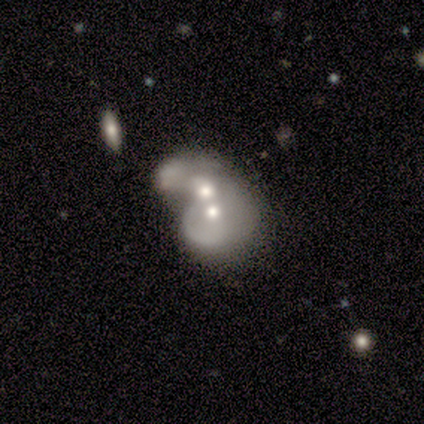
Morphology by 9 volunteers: A featured or disk galaxy (89%) with no bar (100%), no spiral arms (75%) and a moderate central bulge (62%).

Vote fractions:
- Smooth or featured? featured or disk: 89% / smooth: 11% / star or artifact: 0%
- Edge-on disk? no: 100% / yes: 0%
- Bar? no: 100% / strong: 0% / weak: 0%
- Spiral arms? no: 75% / yes: 25%
- Bulge size? moderate: 62% / small: 38% / dominant: 0% / large: 0% / none: 0%
- Merging? merger: 100% / none: 0% / minor disturbance: 0% / major disturbance: 0%